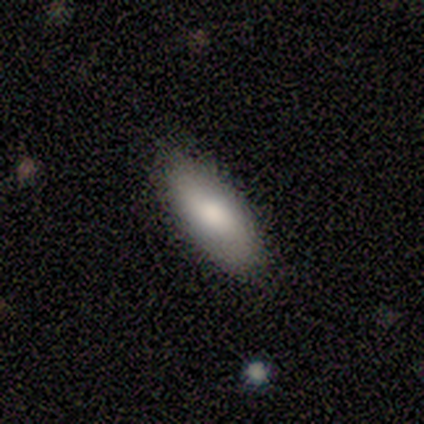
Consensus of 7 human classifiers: Overall: smooth (86%). How rounded: in between (83%). Merging: none (100%).